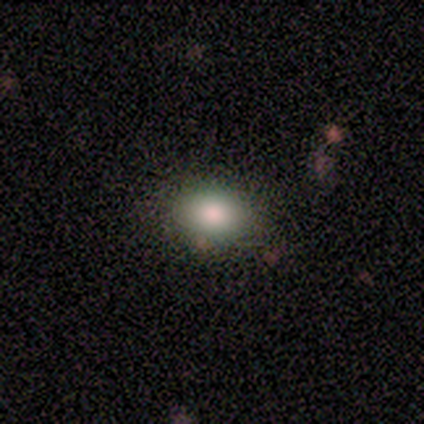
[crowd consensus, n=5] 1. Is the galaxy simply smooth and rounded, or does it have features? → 80% smooth, 20% featured or disk, 0% star or artifact.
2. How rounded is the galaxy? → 75% in between, 25% round, 0% cigar-shaped.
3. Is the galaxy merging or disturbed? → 60% none, 40% minor disturbance, 0% major disturbance, 0% merger.